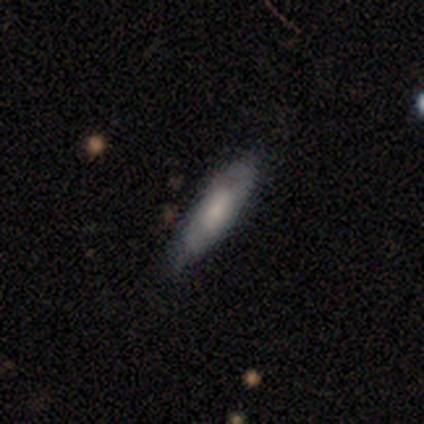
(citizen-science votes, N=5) Morphology: type=featured or disk (60%); edge-on=no (67%); bar=no (100%); spiral arms=yes (50%, tied with no); winding=loose (100%); arm count=can't tell (100%); bulge=moderate (50%, tied with small); merging=none (80%).